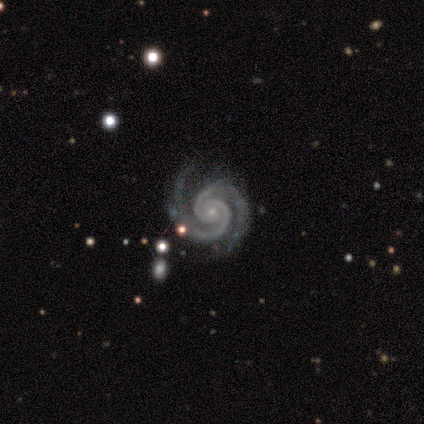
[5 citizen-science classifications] A featured or disk galaxy (80%) with no bar (75%), 2 (100%) tight (100%) spiral arms (100%) and a small central bulge (100%). Merging: none (75%).